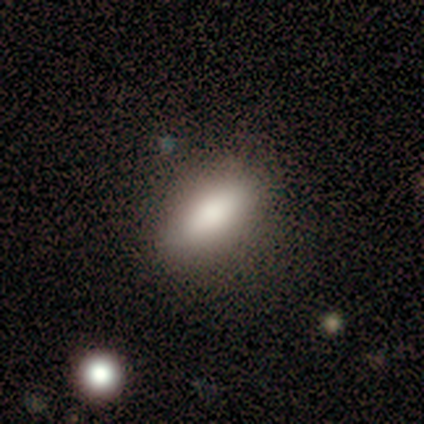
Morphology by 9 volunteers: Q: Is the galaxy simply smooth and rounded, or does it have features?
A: smooth — 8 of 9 (89%).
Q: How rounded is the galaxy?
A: in between — 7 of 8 (88%).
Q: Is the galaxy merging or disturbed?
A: none — 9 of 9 (100%).